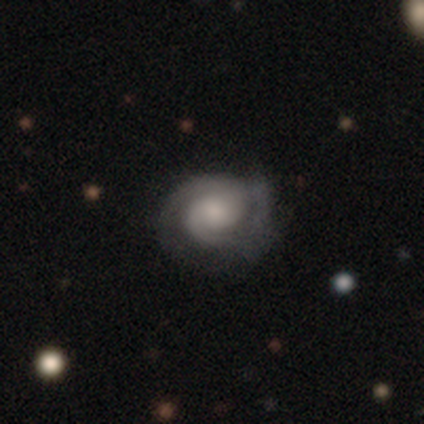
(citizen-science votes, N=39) Overall: featured or disk (87%). Edge-on disk: no (100%). Bar: no (85%). Spiral arms: yes (91%). Spiral arm count: 2 (77%). Spiral winding: tight (61%; medium 26%). Bulge size: moderate (47%; small 29%). Merging: none (65%).